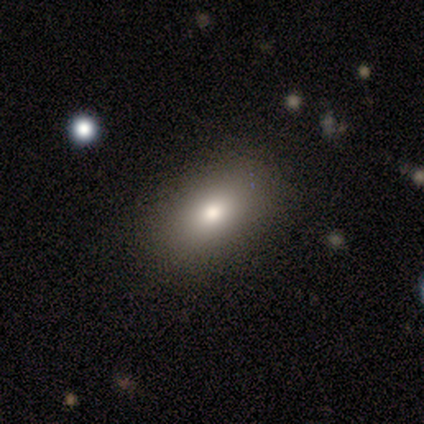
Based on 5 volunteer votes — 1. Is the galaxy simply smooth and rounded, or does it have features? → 100% smooth, 0% featured or disk, 0% star or artifact.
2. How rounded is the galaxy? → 80% in between, 20% round, 0% cigar-shaped.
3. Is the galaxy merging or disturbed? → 100% none, 0% minor disturbance, 0% major disturbance, 0% merger.